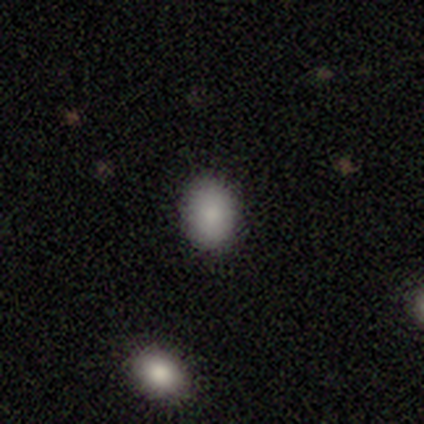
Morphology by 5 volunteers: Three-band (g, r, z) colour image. It shows a smooth galaxy with no disk features (80%) that is in between round and cigar-shaped (100%). Merging: none (100%).